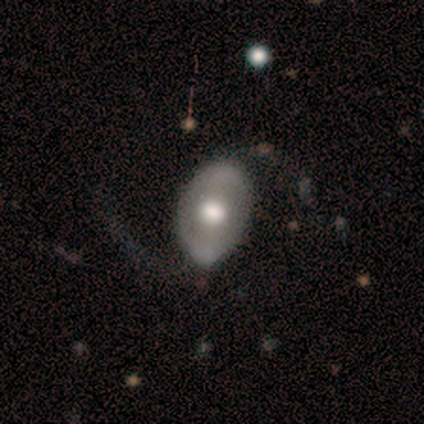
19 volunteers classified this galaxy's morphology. Q: Smooth or featured?
A: featured or disk (79%); runner-up: smooth (16%)
Q: Edge-on disk?
A: no (100%)
Q: Bar?
A: no (47%); runner-up: strong (33%)
Q: Spiral arms?
A: no (53%); runner-up: yes (47%)
Q: Bulge size?
A: moderate (53%); runner-up: large (40%)
Q: Merging?
A: none (56%); runner-up: minor disturbance (28%)